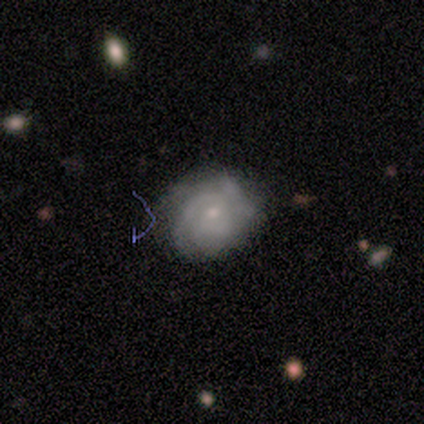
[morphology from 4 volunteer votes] This appears to be a featured or disk galaxy (75%) with a weak bar (67%), more than 4 (50%, tied with can't tell) tight (50%, tied with medium) spiral arms (67%) and a moderate central bulge (67%). Merging: none (75%).